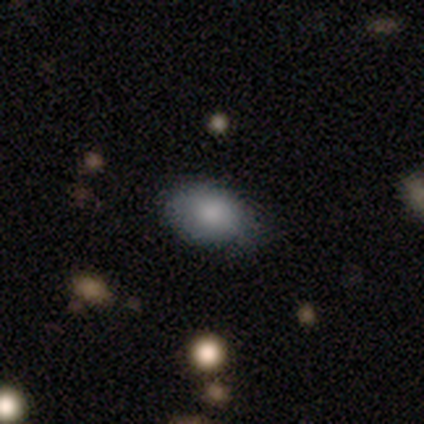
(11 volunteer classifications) smooth_or_featured: smooth (p=0.91) [alt: featured or disk p=0.09]
how_rounded: in between (p=0.90) [alt: round p=0.10]
merging: none (p=0.82) [alt: minor disturbance p=0.09]